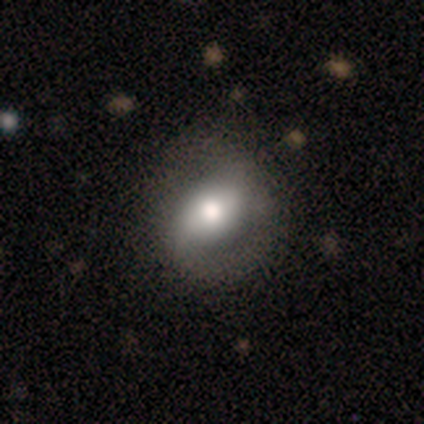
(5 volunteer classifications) Morphology: type=featured or disk (60%); edge-on=no (100%); bar=weak (67%); spiral arms=yes (67%); winding=medium (50%, tied with loose); arm count=2 (100%); bulge=moderate (100%); merging=none (80%).